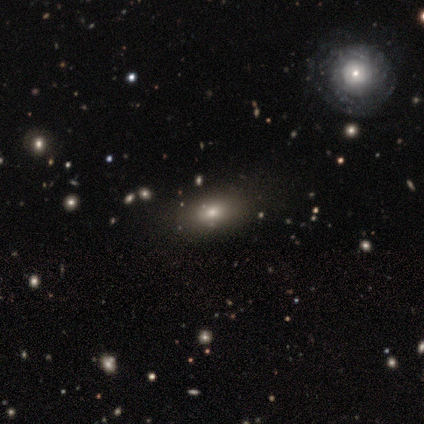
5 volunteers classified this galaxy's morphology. Smooth or featured? 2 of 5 (40%, tied with star or artifact) said smooth. How rounded? 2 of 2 (100%) said in between. Merging? 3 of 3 (100%) said none.